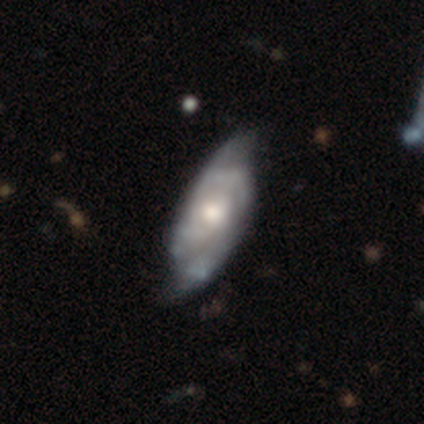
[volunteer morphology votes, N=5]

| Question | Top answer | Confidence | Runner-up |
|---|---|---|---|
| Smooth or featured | featured or disk | 80% | smooth (20%) |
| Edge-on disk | no | 100% | — |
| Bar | no | 100% | — |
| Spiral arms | yes | 75% | no (25%) |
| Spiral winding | tight | 67% | medium (33%) |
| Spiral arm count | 2 | 67% | 3 (33%) |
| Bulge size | moderate | 100% | — |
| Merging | none | 40% | tied: major disturbance (40%) |